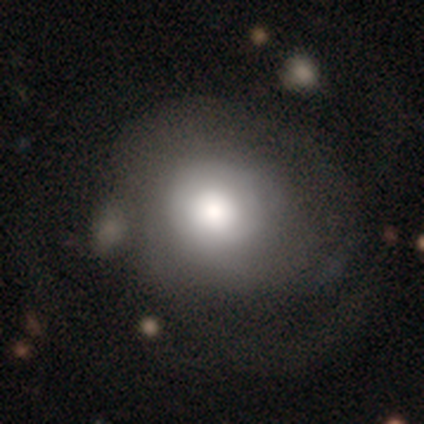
A smooth galaxy with no disk features (70%) that is round (71%). Merging: major disturbance (36%).